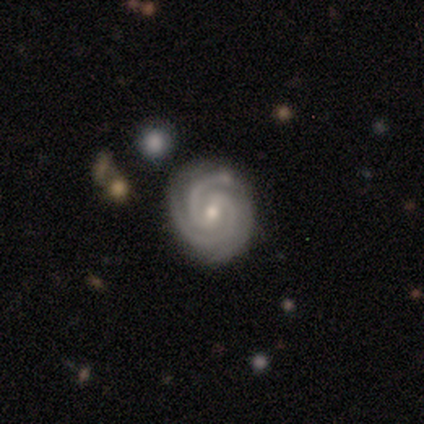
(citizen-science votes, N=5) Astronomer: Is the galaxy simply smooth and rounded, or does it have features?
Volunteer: featured or disk — 100%.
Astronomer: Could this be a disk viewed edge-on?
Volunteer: no — 100%.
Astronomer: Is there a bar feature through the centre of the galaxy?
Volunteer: weak — 60%.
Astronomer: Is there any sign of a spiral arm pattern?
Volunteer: yes — 100%.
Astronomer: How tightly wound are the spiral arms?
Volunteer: tight — 60% (runner-up: medium, 40%).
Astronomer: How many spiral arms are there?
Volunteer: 2 — 60%.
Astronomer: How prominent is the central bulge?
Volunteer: small — 60% (runner-up: moderate, 40%).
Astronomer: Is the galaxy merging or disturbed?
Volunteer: none — 100%.